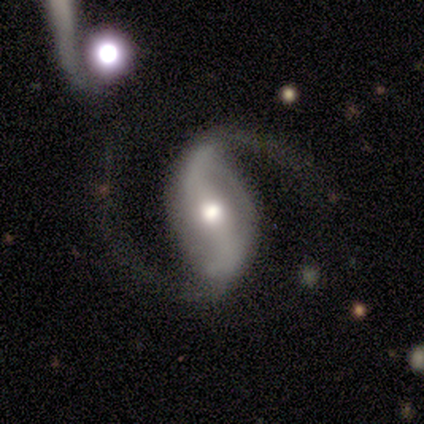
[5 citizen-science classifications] A featured or disk galaxy (80%) with a strong bar (67%), 2 (100%) loose (67%) spiral arms (100%) and a moderate central bulge (67%).

Vote fractions:
- Smooth or featured? featured or disk: 80% / smooth: 20% / star or artifact: 0%
- Edge-on disk? no: 75% / yes: 25%
- Bar? strong: 67% / no: 33% / weak: 0%
- Spiral arms? yes: 100% / no: 0%
- Spiral winding? loose: 67% / medium: 33% / tight: 0%
- Spiral arm count? 2: 100% / 1: 0% / 3: 0% / 4: 0% / more than 4: 0% / can't tell: 0%
- Bulge size? moderate: 67% / small: 33% / dominant: 0% / large: 0% / none: 0%
- Merging? none: 40% (tied) / merger: 40% (tied) / major disturbance: 20% / minor disturbance: 0%